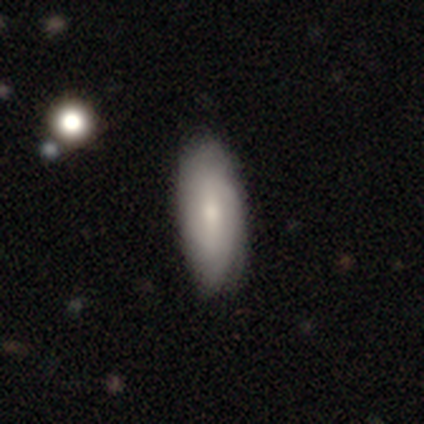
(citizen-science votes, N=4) Smooth or featured?
  - smooth: 50% *
  - featured or disk: 25%
  - star or artifact: 25%
How rounded?
  - in between: 100% *
  - round: 0%
  - cigar-shaped: 0%
Merging?
  - none: 33% * (tied)
  - minor disturbance: 33% * (tied)
  - major disturbance: 33% * (tied)
  - merger: 0%